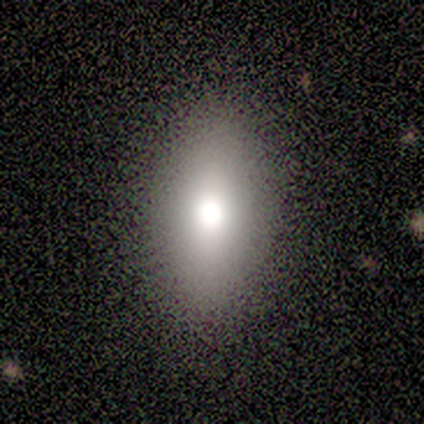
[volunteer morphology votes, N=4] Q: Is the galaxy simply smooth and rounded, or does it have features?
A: featured or disk — 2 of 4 (50%, tied with star or artifact).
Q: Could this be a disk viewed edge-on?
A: no — 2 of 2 (100%).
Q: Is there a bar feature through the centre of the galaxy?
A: no — 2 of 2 (100%).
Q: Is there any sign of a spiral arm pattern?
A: no — 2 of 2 (100%).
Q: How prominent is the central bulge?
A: moderate — 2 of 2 (100%).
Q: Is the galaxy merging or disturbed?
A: none — 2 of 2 (100%).